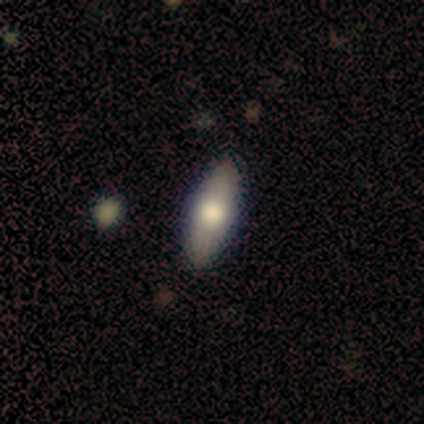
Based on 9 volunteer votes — A smooth galaxy with no disk features (44%, tied with featured or disk) that is in between round and cigar-shaped (75%).

Vote fractions:
- Smooth or featured? smooth: 44% (tied) / featured or disk: 44% (tied) / star or artifact: 11%
- How rounded? in between: 75% / cigar-shaped: 25% / round: 0%
- Merging? none: 100% / minor disturbance: 0% / major disturbance: 0% / merger: 0%